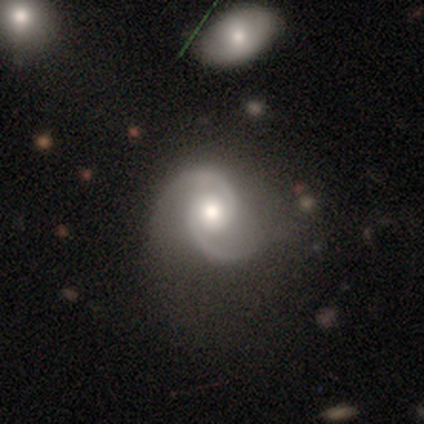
Volunteers were most divided on "spiral winding" (2-way tie): tight: 43%, medium: 43%, loose: 14%. More confident: smooth or featured — featured or disk (100%); edge-on disk — no (100%); spiral arms — yes (100%); spiral arm count — 2 (100%); bulge size — moderate (100%); bar — no (86%); merging — none (71%).